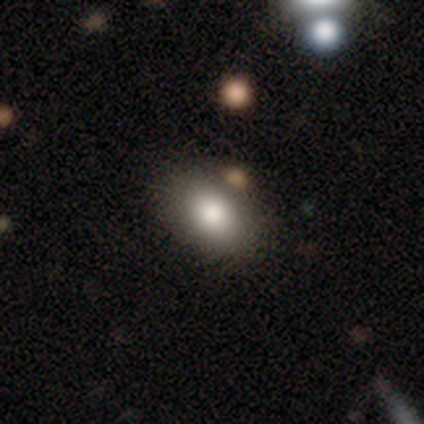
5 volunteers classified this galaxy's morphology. A smooth galaxy with no disk features (100%) that is in between round and cigar-shaped (80%).

Vote fractions:
- Smooth or featured? smooth: 100% / featured or disk: 0% / star or artifact: 0%
- How rounded? in between: 80% / round: 20% / cigar-shaped: 0%
- Merging? none: 80% / minor disturbance: 20% / major disturbance: 0% / merger: 0%